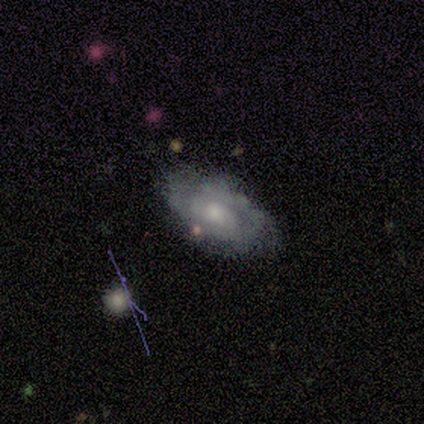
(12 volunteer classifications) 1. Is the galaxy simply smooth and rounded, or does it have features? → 75% featured or disk, 25% smooth, 0% star or artifact.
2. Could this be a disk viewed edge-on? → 89% no, 11% yes.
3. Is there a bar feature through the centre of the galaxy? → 62% no, 38% weak, 0% strong.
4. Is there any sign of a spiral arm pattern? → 50% yes (tied), 50% no (tied).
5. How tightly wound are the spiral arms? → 75% tight, 25% medium, 0% loose.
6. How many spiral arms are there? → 75% 2, 25% can't tell, 0% 1, 0% 3, 0% 4, 0% more than 4.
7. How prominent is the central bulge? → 50% moderate, 38% small, 12% none, 0% dominant, 0% large.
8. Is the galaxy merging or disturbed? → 58% none, 25% minor disturbance, 17% major disturbance, 0% merger.